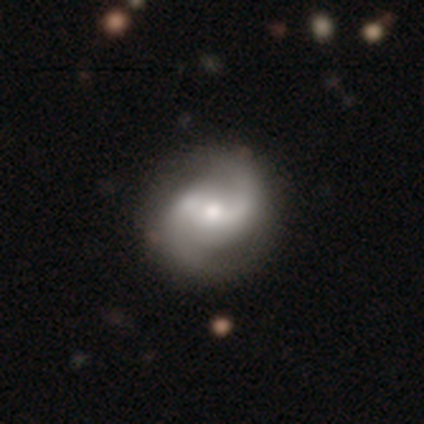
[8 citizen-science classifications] A featured or disk galaxy (88%) with no bar (57%), 2 (100%) tight (43%) spiral arms (100%) and a moderate central bulge (57%). Merging: none (75%).